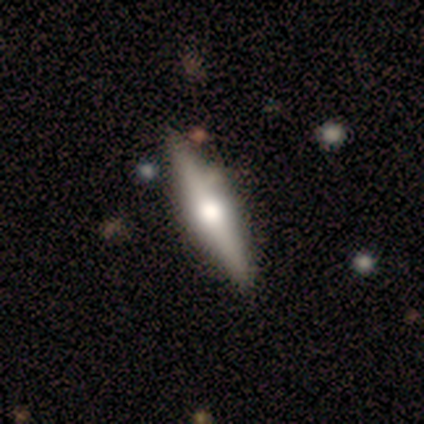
A featured or disk galaxy (60%) viewed edge-on (100%) with a rounded central bulge (100%).

Vote fractions:
- Smooth or featured? featured or disk: 60% / smooth: 40% / star or artifact: 0%
- Edge-on disk? yes: 100% / no: 0%
- Edge-on bulge? rounded: 100% / boxy: 0% / none: 0%
- Merging? none: 100% / minor disturbance: 0% / major disturbance: 0% / merger: 0%